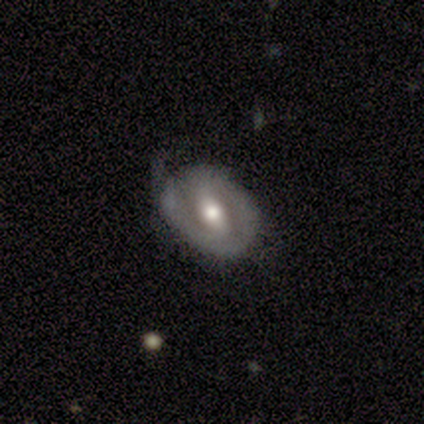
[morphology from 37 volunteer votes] Smooth or featured: featured or disk — 76% (smooth — 24%)
Edge-on disk: no — 100%
Bar: strong — 54% (weak — 25%)
Spiral arms: yes — 64% (no — 36%)
Spiral winding: tight — 44% (medium — 28%)
Spiral arm count: 2 — 44% (1 — 33%)
Bulge size: moderate — 68% (large — 25%)
Merging: none — 51% (minor disturbance — 41%)